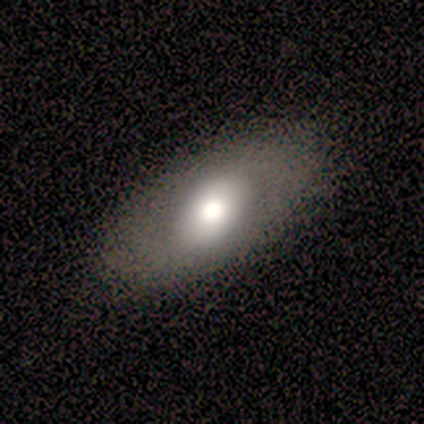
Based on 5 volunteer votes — A smooth galaxy with no disk features (80%) that is in between round and cigar-shaped (50%).

Vote fractions:
- Smooth or featured? smooth: 80% / featured or disk: 20% / star or artifact: 0%
- How rounded? in between: 50% / round: 25% / cigar-shaped: 25%
- Merging? none: 40% (tied) / minor disturbance: 40% (tied) / major disturbance: 20% / merger: 0%